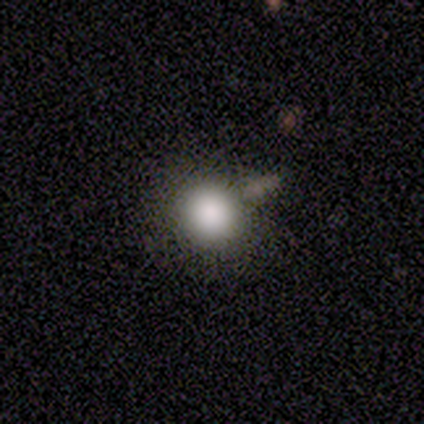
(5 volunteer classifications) This is clearly a smooth galaxy (100%). How rounded: clearly round (100%). Merging: clearly none (100%).